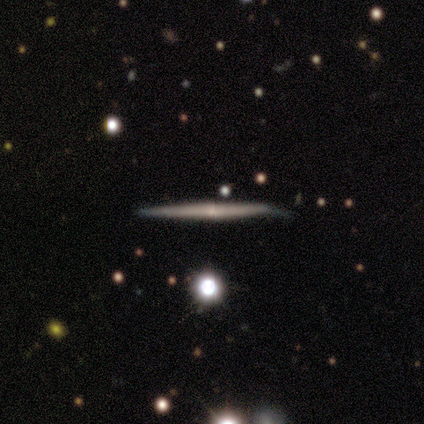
smooth-or-featured: featured or disk: 100% | smooth: 0% | star or artifact: 0%
  disk-edge-on: yes: 100% | no: 0%
    edge-on-bulge: rounded: 100% | boxy: 0% | none: 0%
  merging: none: 100% | minor disturbance: 0% | major disturbance: 0% | merger: 0%